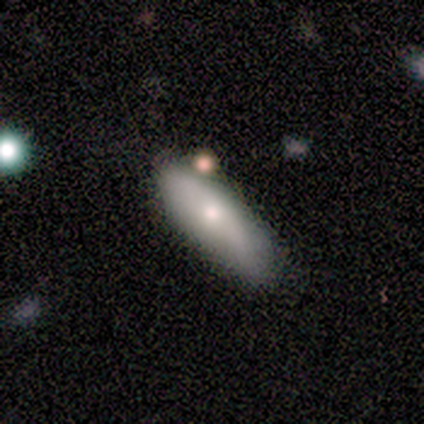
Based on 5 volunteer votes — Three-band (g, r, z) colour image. It shows a smooth galaxy with no disk features (60%) that is in between round and cigar-shaped (100%). Merging: none (100%).